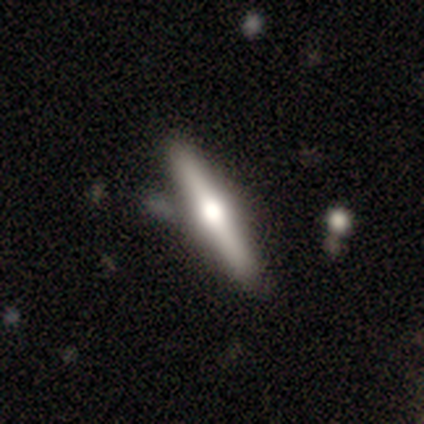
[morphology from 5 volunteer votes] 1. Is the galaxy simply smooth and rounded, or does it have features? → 60% smooth, 20% featured or disk, 20% star or artifact.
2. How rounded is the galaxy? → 100% cigar-shaped, 0% round, 0% in between.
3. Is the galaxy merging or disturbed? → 75% none, 25% merger, 0% minor disturbance, 0% major disturbance.